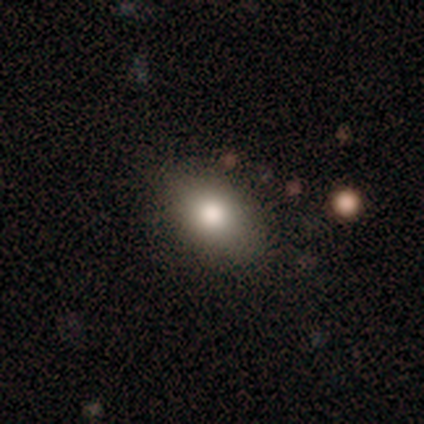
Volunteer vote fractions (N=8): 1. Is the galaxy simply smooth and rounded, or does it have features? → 62% smooth, 25% star or artifact, 12% featured or disk.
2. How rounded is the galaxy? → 80% in between, 20% round, 0% cigar-shaped.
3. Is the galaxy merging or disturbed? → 83% none, 17% major disturbance, 0% minor disturbance, 0% merger.